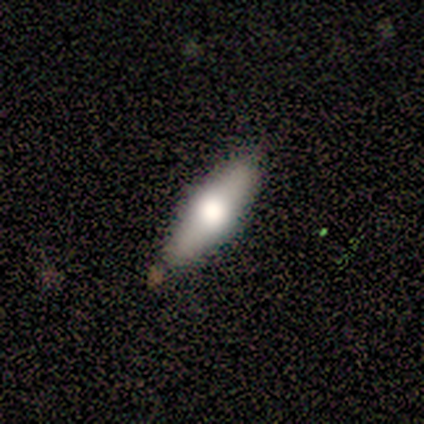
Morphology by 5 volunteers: smooth_or_featured: smooth (p=0.60) [alt: featured or disk p=0.40]
how_rounded: cigar-shaped (p=0.67) [alt: in between p=0.33]
merging: none (p=1.00)